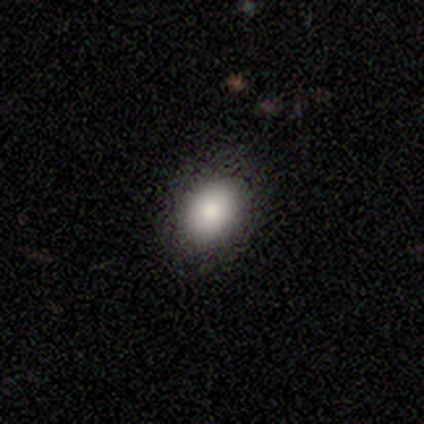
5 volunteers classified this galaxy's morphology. Smooth or featured: smooth — 80% (featured or disk — 20%)
How rounded: in between — 100%
Merging: none — 80% (minor disturbance — 20%)